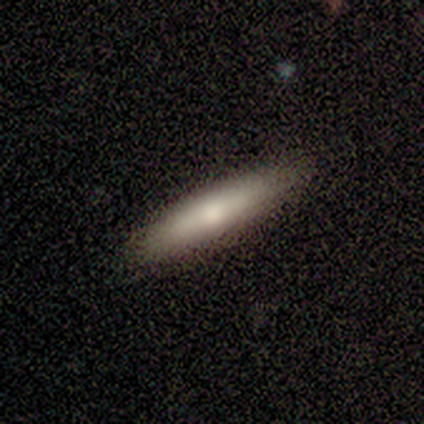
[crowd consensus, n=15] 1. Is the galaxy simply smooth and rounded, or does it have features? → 67% smooth, 27% featured or disk, 7% star or artifact.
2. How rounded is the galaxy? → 70% cigar-shaped, 30% in between, 0% round.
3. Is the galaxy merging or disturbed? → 86% none, 14% minor disturbance, 0% major disturbance, 0% merger.